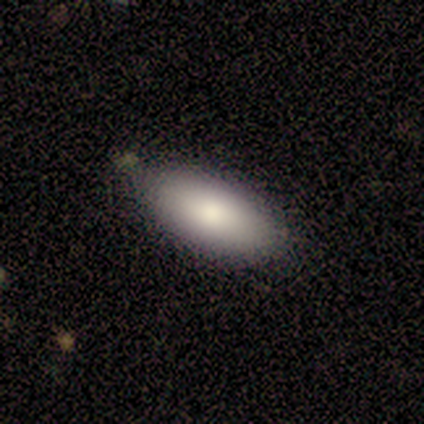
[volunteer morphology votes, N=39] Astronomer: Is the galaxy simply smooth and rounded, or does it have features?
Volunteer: smooth — 87%.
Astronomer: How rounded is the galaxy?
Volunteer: in between — 85%.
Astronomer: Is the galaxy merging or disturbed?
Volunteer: none — 86%.